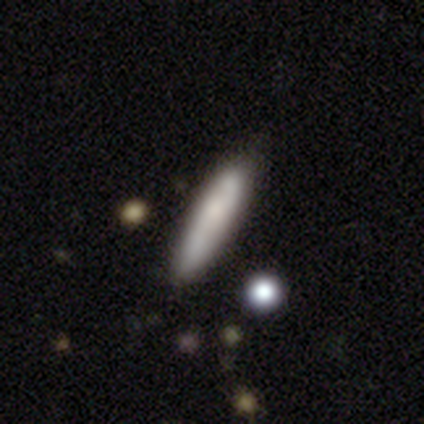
Smooth or featured?
  - smooth: 61% *
  - featured or disk: 34%
  - star or artifact: 5%
How rounded?
  - cigar-shaped: 88% *
  - in between: 12%
  - round: 0%
Merging?
  - none: 39% *
  - minor disturbance: 9%
  - merger: 5%
  - major disturbance: 3%